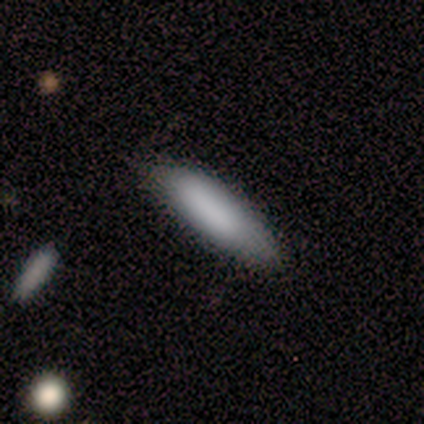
smooth-or-featured: smooth: 100% | featured or disk: 0% | star or artifact: 0%
  how-rounded: cigar-shaped: 80% | in between: 20% | round: 0%
  merging: none: 80% | minor disturbance: 20% | major disturbance: 0% | merger: 0%